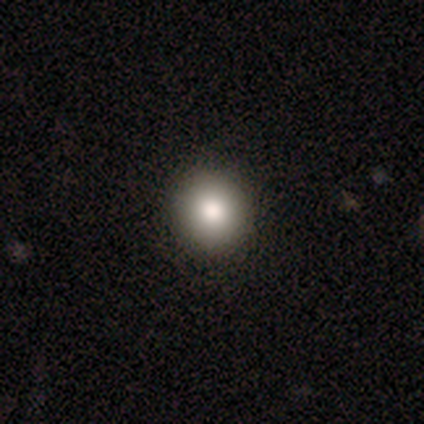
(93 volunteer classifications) smooth-or-featured: smooth: 84% | featured or disk: 9% | star or artifact: 8%
  how-rounded: round: 95% | in between: 5% | cigar-shaped: 0%
  merging: none: 97% | minor disturbance: 2% | merger: 1% | major disturbance: 0%